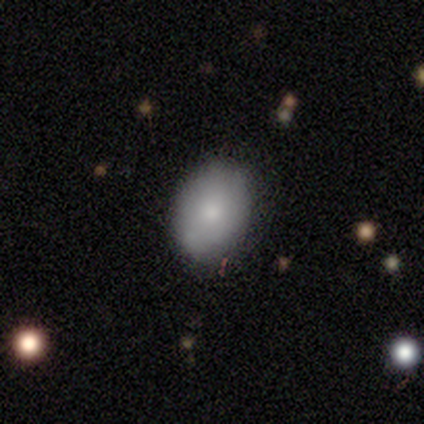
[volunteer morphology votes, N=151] A smooth galaxy with no disk features (81%) that is in between round and cigar-shaped (82%).

Vote fractions:
- Smooth or featured? smooth: 81% / featured or disk: 17% / star or artifact: 3%
- How rounded? in between: 82% / round: 18% / cigar-shaped: 0%
- Merging? none: 85% / minor disturbance: 14% / merger: 1% / major disturbance: 0%